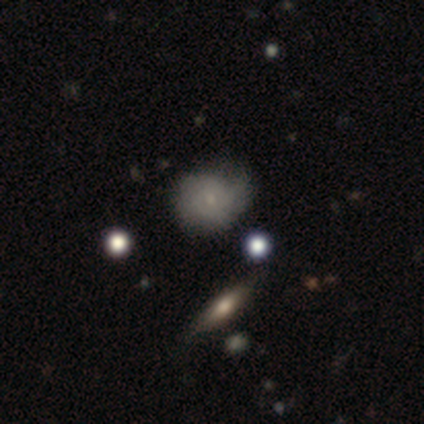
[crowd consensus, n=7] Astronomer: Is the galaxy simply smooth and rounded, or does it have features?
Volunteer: smooth — 43%, tied with featured or disk at 43%.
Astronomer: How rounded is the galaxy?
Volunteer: round — 100%.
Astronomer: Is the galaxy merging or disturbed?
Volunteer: none — 67%.